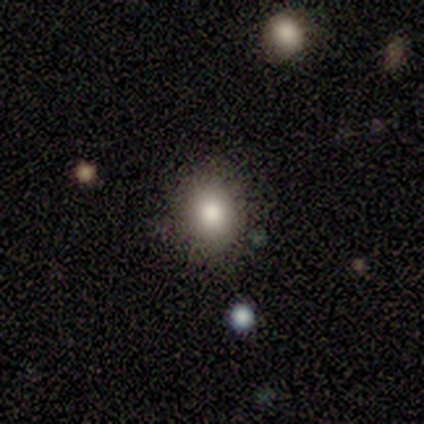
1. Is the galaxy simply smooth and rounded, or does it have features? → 60% smooth, 40% star or artifact, 0% featured or disk.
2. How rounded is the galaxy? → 67% round, 33% in between, 0% cigar-shaped.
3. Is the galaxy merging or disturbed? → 100% none, 0% minor disturbance, 0% major disturbance, 0% merger.